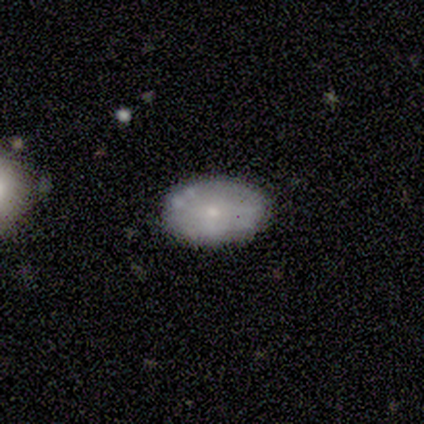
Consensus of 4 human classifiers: smooth 100%, featured or disk 0%, star or artifact 0%. Down the decision tree: how rounded — in between (100%); merging — none (100%).